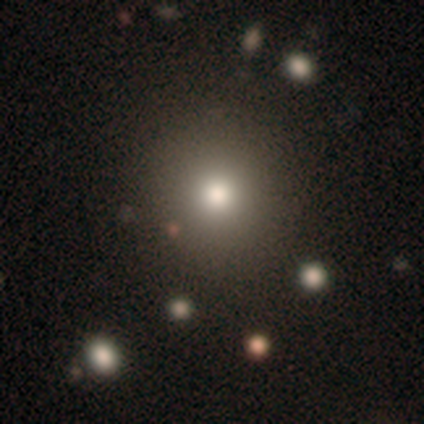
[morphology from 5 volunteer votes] Smooth or featured? smooth (80%)
How rounded? round (75%)
Merging? none (75%)